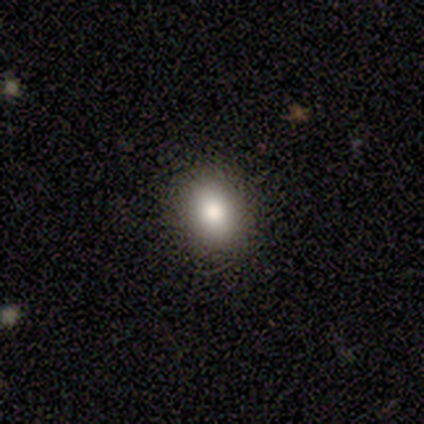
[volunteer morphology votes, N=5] smooth_or_featured: smooth (p=1.00)
how_rounded: round (p=0.60) [alt: in between p=0.40]
merging: none (p=0.80) [alt: minor disturbance p=0.20]